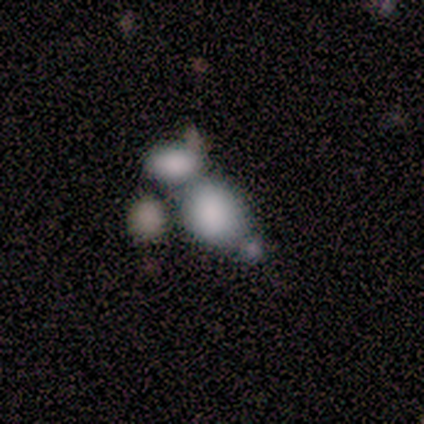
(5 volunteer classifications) Smooth or featured: smooth — 80% (star or artifact — 20%)
How rounded: round — 75% (in between — 25%)
Merging: merger — 75% (none — 25%)